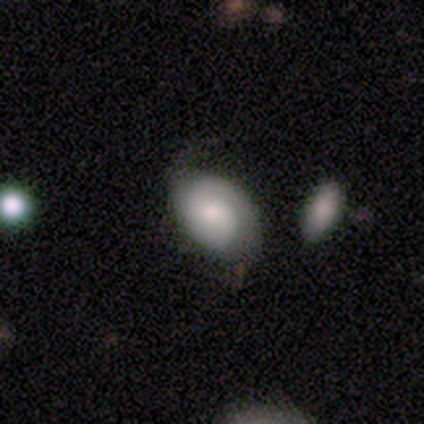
featured or disk 55%, smooth 45%, star or artifact 0%. Down the decision tree: edge-on disk — no (95%); bar — no (60%); spiral arms — yes (85%); spiral arm count — 2 (71%); spiral winding — medium (65%); bulge size — moderate (40%); merging — none (58%).